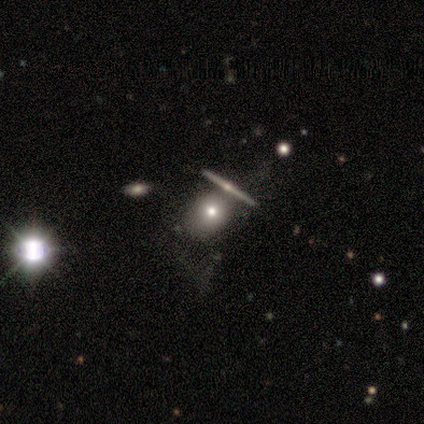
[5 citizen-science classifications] Smooth or featured? 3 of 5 (60%) said featured or disk. Edge-on disk? 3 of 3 (100%) said no. Bar? 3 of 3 (100%) said no. Spiral arms? 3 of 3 (100%) said no. Bulge size? 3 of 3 (100%) said moderate. Merging? 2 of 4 (50%, tied with major disturbance) said none.